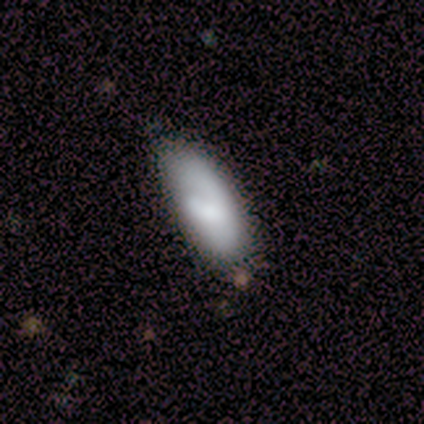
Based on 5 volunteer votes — This is clearly a smooth galaxy (100%). How rounded: clearly in between (100%). Merging: clearly none (100%).